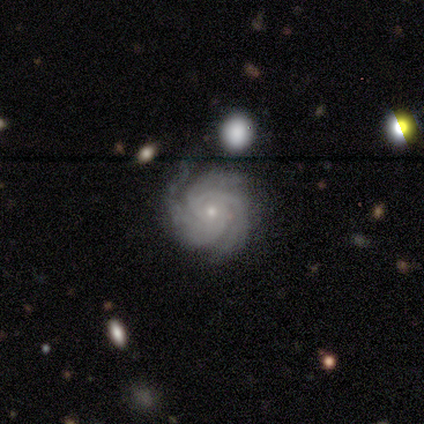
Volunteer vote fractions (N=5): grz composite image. It shows a featured or disk galaxy (100%) with no bar (80%), 2 (40%) tight (80%) spiral arms (100%) and a small central bulge (100%). Merging: minor disturbance (60%).